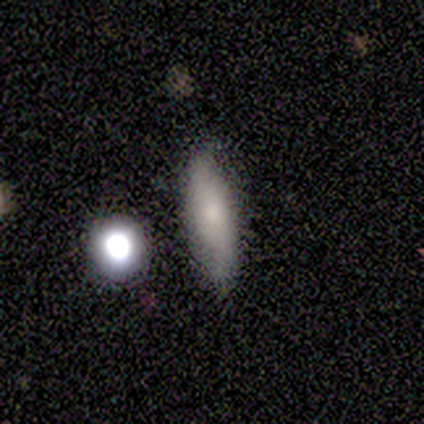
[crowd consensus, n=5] Smooth or featured? smooth (60%)
How rounded? in between (67%)
Merging? none (75%)